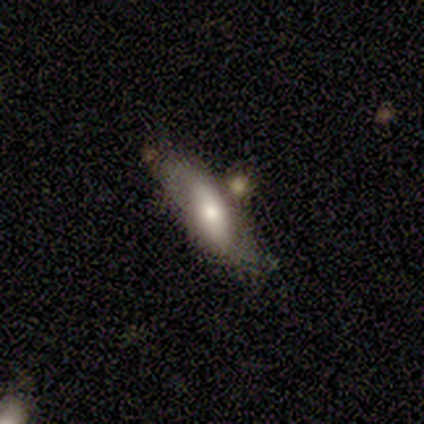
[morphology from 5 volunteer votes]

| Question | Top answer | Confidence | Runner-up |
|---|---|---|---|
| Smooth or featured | smooth | 60% | featured or disk (40%) |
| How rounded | in between | 67% | cigar-shaped (33%) |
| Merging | none | 60% | minor disturbance (20%) |